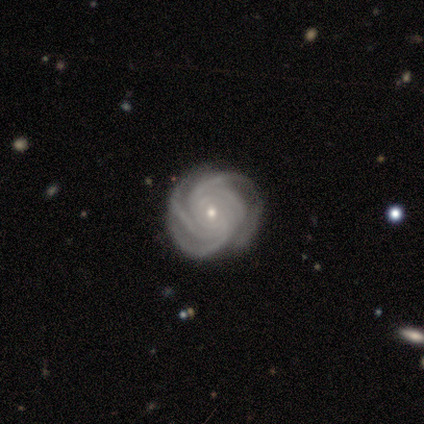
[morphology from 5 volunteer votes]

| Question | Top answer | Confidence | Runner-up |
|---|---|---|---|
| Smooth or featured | featured or disk | 80% | smooth (20%) |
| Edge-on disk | no | 100% | — |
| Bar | no | 75% | weak (25%) |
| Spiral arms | yes | 100% | — |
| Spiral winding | tight | 75% | medium (25%) |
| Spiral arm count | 4 | 50% | 3 (25%) |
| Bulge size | small | 75% | moderate (25%) |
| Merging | none | 40% | tied: minor disturbance (40%) |